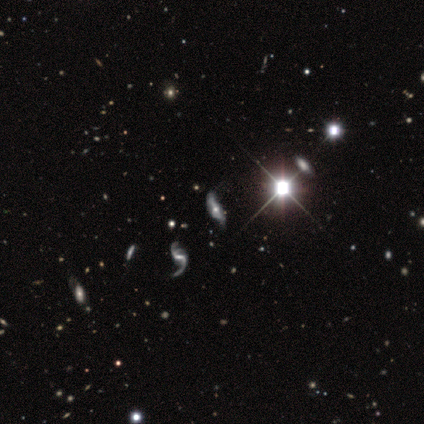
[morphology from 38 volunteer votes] Smooth or featured? 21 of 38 (55%) said featured or disk. Edge-on disk? 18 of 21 (86%) said no. Bar? 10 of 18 (56%) said no. Spiral arms? 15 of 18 (83%) said yes. Spiral winding? 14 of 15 (93%) said loose. Spiral arm count? 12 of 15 (80%) said 2. Bulge size? 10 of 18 (56%) said moderate. Merging? 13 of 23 (57%) said none.